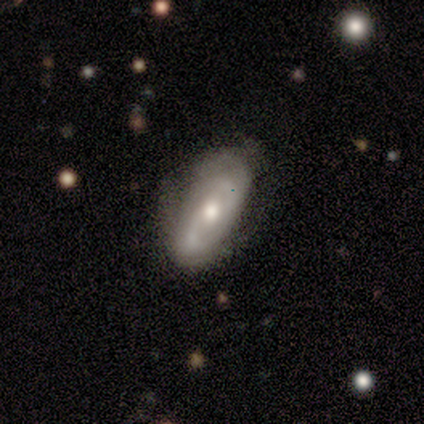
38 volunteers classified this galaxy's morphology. Volunteers were most divided on "spiral winding": medium: 41%, loose: 32%, tight: 27%. More confident: edge-on disk — no (97%); spiral arm count — 2 (82%); spiral arms — yes (79%); smooth or featured — featured or disk (76%); bulge size — moderate (71%); merging — none (70%); bar — no (61%).